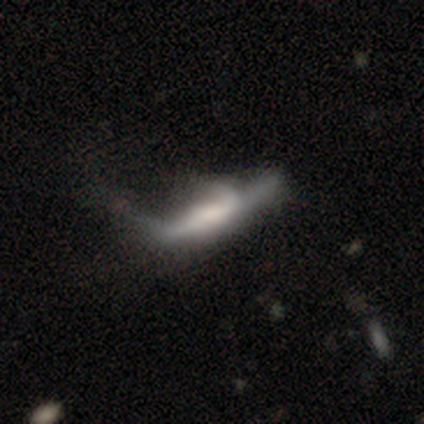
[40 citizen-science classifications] Overall: featured or disk (48%; smooth 45%). Edge-on disk: yes (79%). Edge-on bulge: boxy (53%; rounded 27%). Merging: major disturbance (54%; minor disturbance 24%).